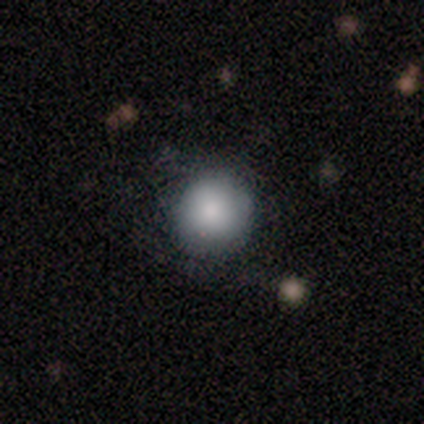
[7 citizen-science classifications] Q: Smooth or featured?
A: smooth (86%); runner-up: featured or disk (14%)
Q: How rounded?
A: round (83%); runner-up: in between (17%)
Q: Merging?
A: none (57%); runner-up: minor disturbance (14%)